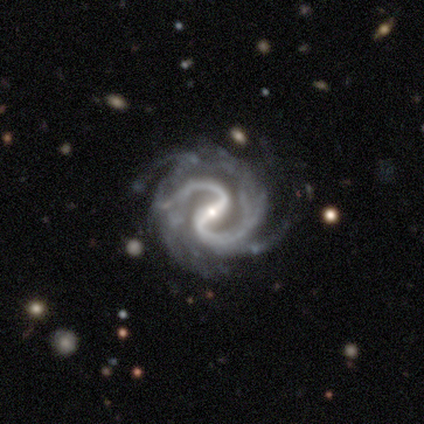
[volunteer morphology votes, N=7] This appears to be a featured or disk galaxy (100%) with a strong bar (71%), 2 (71%) medium (71%) spiral arms (100%) and a small central bulge (71%). Merging: none (43%, tied with major disturbance).